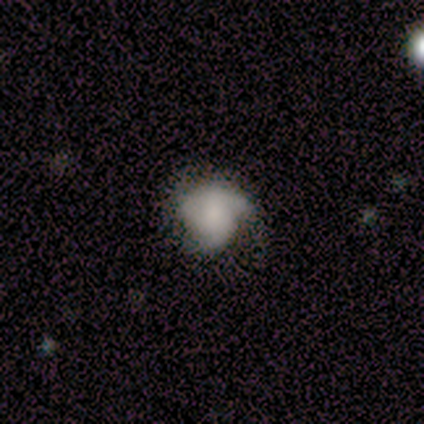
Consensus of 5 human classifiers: Overall: featured or disk (80%). Edge-on disk: no (100%). Bar: weak (50%, tied with no). Spiral arms: yes (75%). Spiral arm count: 2 (33%, tied with 3 and can't tell). Spiral winding: tight (67%; medium 33%). Bulge size: none (50%; large 25%). Merging: none (40%, tied with major disturbance).